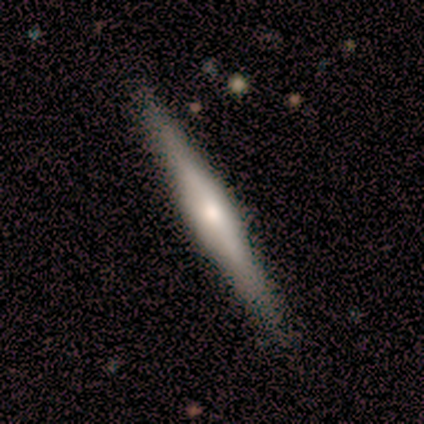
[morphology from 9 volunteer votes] smooth_or_featured: featured or disk (p=0.56) [alt: smooth p=0.33]
disk_edge_on: yes (p=0.80) [alt: no p=0.20]
edge_on_bulge: rounded (p=1.00)
merging: none (p=0.50) [tied with: minor disturbance p=0.50]